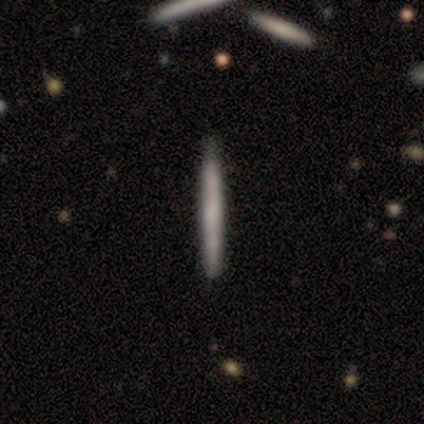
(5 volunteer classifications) Morphology: type=smooth (60%); roundness=cigar-shaped (100%); merging=none (80%).